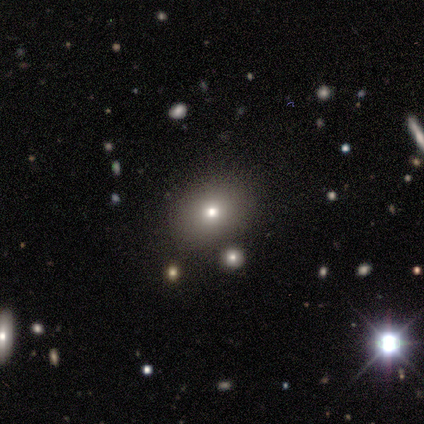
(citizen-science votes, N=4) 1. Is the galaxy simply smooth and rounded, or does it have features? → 100% smooth, 0% featured or disk, 0% star or artifact.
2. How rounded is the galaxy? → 75% round, 25% in between, 0% cigar-shaped.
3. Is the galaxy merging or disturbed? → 100% none, 0% minor disturbance, 0% major disturbance, 0% merger.